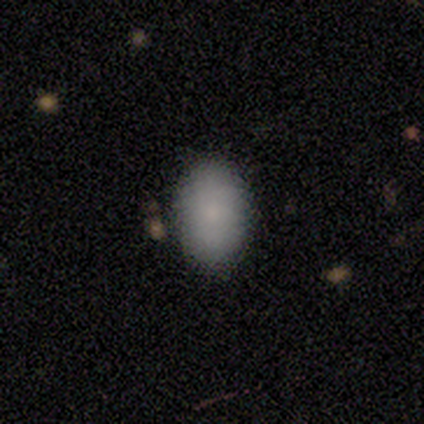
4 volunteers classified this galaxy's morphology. This appears to be a smooth galaxy with no disk features (100%) that is in between round and cigar-shaped (100%). Merging: none (100%).